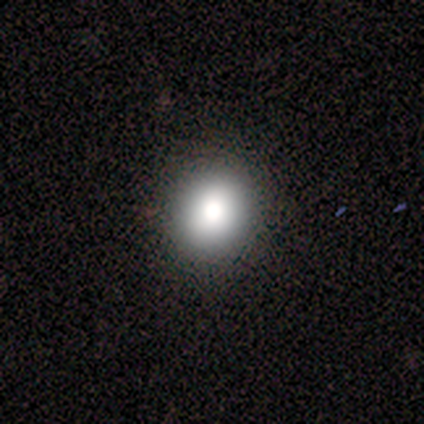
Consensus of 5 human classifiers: Morphology: type=smooth (100%); roundness=round (60%); merging=none (100%).